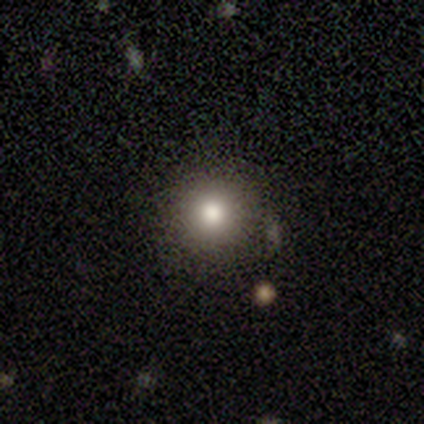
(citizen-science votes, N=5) Q: Smooth or featured?
A: star or artifact (60%); runner-up: smooth (40%)